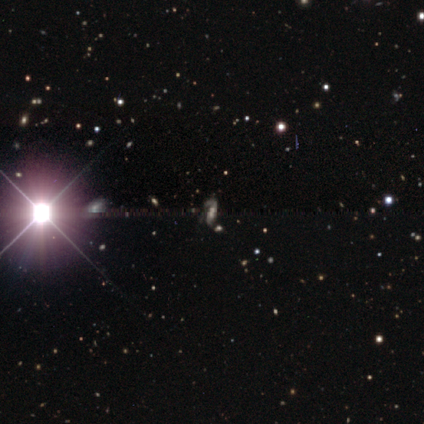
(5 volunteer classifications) Smooth or featured: star or artifact — 100%